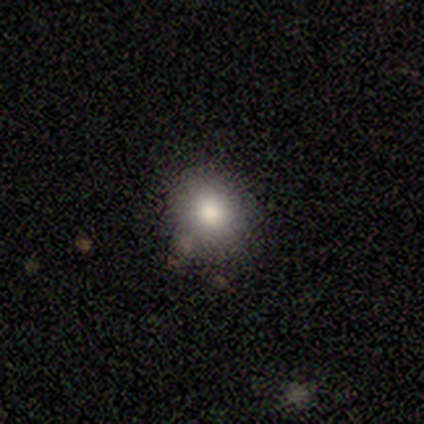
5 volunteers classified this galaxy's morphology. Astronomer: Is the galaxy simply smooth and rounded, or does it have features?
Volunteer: smooth — 60%.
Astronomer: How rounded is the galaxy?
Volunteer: round — 100%.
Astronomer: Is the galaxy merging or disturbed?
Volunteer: none — 75%.